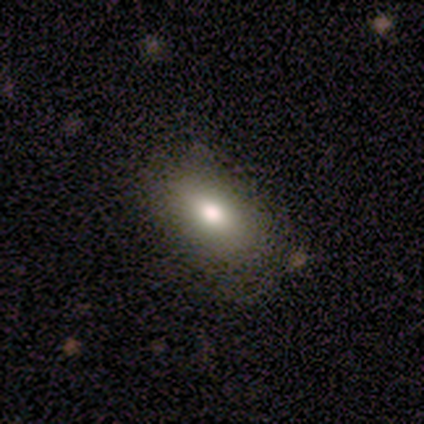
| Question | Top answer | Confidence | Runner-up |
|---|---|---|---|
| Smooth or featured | smooth | 100% | — |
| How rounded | in between | 100% | — |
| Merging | minor disturbance | 60% | none (40%) |